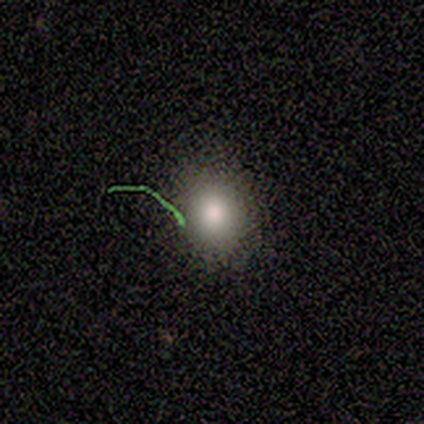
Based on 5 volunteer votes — This is clearly a smooth galaxy (80%). How rounded: likely round (75%). Merging: clearly none (100%).